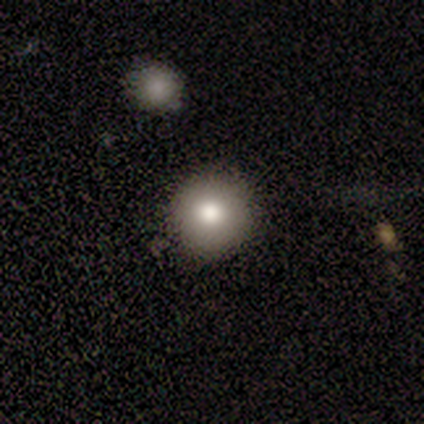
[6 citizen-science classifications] smooth_or_featured: smooth (p=0.83) [alt: star or artifact p=0.17]
how_rounded: round (p=0.80) [alt: in between p=0.20]
merging: none (p=0.80) [alt: merger p=0.20]